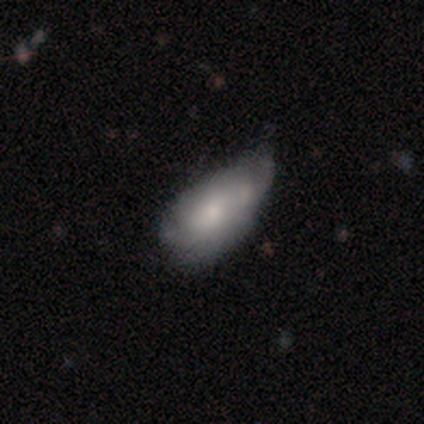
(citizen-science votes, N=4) smooth 50%, featured or disk 25%, star or artifact 25%. Down the decision tree: how rounded — in between (100%); merging — none (33%, tied with minor disturbance and major disturbance).